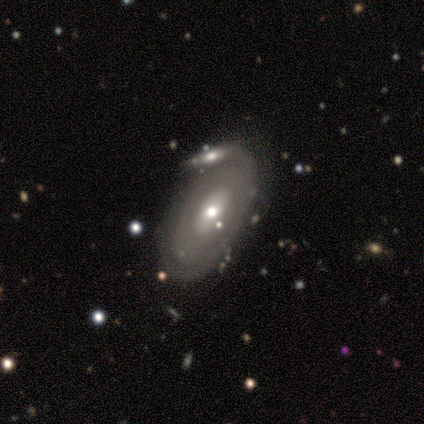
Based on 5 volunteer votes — Smooth or featured: featured or disk — 60% (smooth — 40%)
Edge-on disk: yes — 67% (no — 33%)
Edge-on bulge: none — 50% (tied with rounded — 50%)
Merging: none — 60% (major disturbance — 20%)